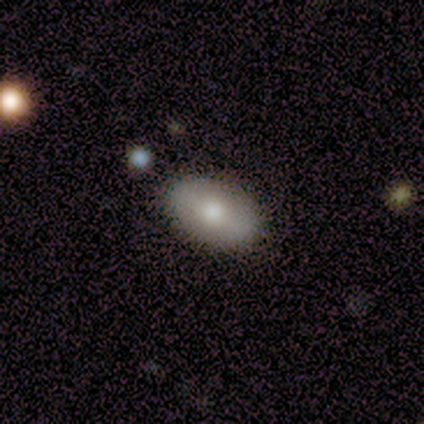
smooth 60%, featured or disk 20%, star or artifact 20%. Down the decision tree: how rounded — in between (100%); merging — none (100%).